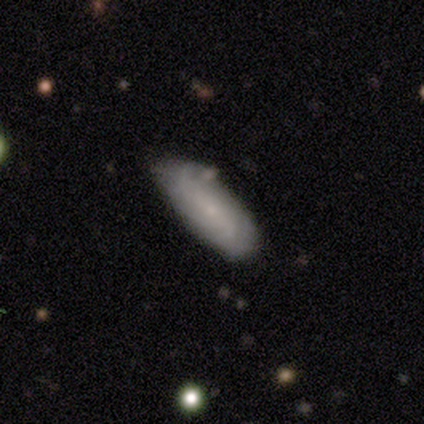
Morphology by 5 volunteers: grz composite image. It shows a featured or disk galaxy (80%) with a weak bar (50%, tied with no), tight (67%) spiral arms (75%) and a small central bulge (100%). Merging: none (60%).